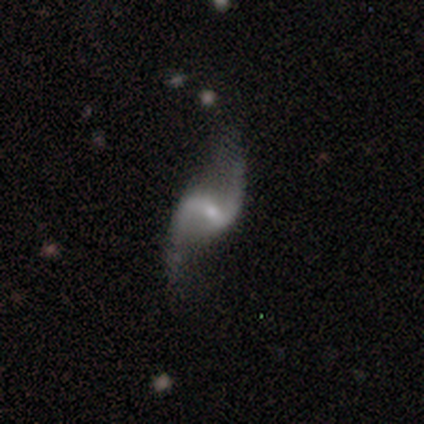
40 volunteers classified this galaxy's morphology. A featured or disk galaxy (88%) with a weak bar (57%), 2 (100%) loose (97%) spiral arms (94%) and a small central bulge (77%). Merging: none (81%).